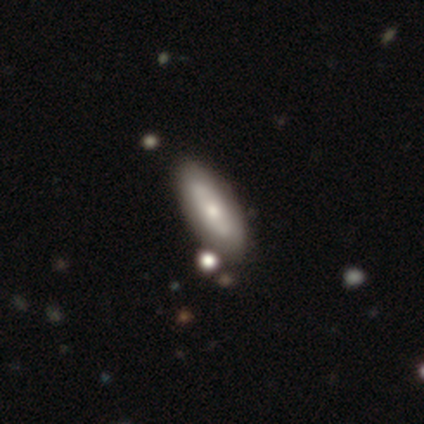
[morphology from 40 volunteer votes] Smooth or featured?
  - featured or disk: 52% *
  - smooth: 48%
  - star or artifact: 0%
Edge-on disk?
  - no: 86% *
  - yes: 14%
Bar?
  - no: 78% *
  - strong: 11%
  - weak: 11%
Spiral arms?
  - no: 78% *
  - yes: 22%
Bulge size?
  - small: 56% *
  - moderate: 33%
  - large: 11%
  - dominant: 0%
  - none: 0%
Merging?
  - none: 55% *
  - merger: 10%
  - major disturbance: 5%
  - minor disturbance: 2%